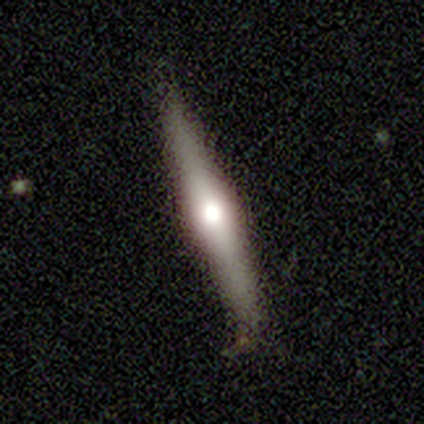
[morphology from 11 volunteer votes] Overall: featured or disk (91%). Edge-on disk: yes (90%). Edge-on bulge: rounded (89%). Merging: none (64%; minor disturbance 36%).